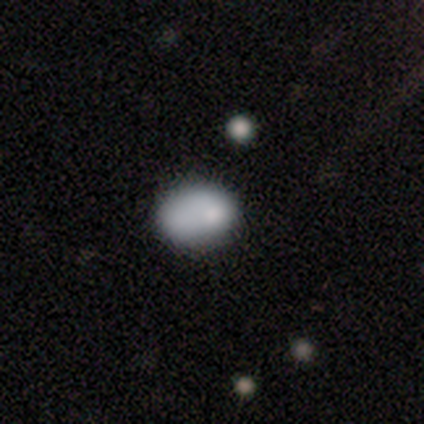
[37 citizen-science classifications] Smooth or featured? 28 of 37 (76%) said smooth. How rounded? 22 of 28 (79%) said in between. Merging? 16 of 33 (48%) said none.